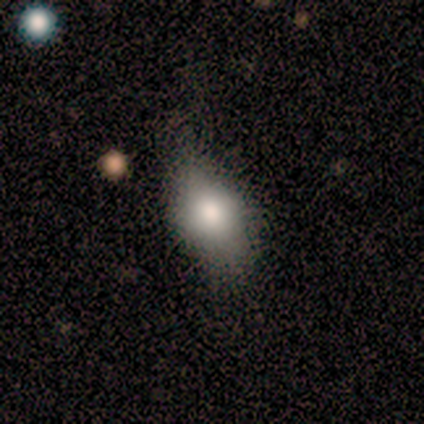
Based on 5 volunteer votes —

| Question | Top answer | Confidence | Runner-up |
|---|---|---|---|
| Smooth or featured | smooth | 60% | featured or disk (20%) |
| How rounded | in between | 67% | round (33%) |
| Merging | none | 75% | major disturbance (25%) |